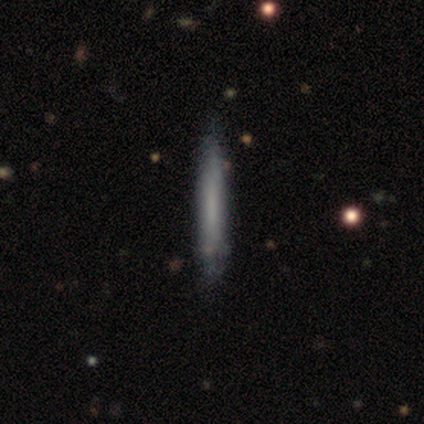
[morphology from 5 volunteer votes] Overall: smooth (60%; featured or disk 40%). How rounded: cigar-shaped (100%). Merging: none (80%).